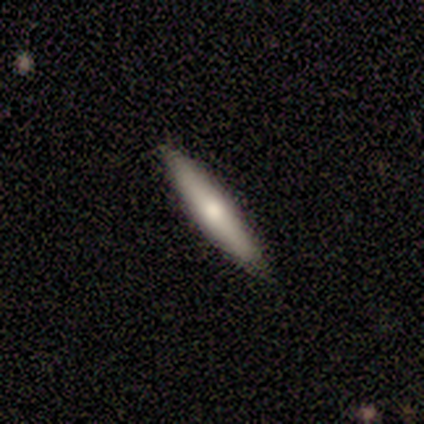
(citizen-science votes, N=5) A smooth galaxy with no disk features (60%) that is cigar-shaped (100%).

Vote fractions:
- Smooth or featured? smooth: 60% / featured or disk: 40% / star or artifact: 0%
- How rounded? cigar-shaped: 100% / round: 0% / in between: 0%
- Merging? none: 80% / minor disturbance: 20% / major disturbance: 0% / merger: 0%